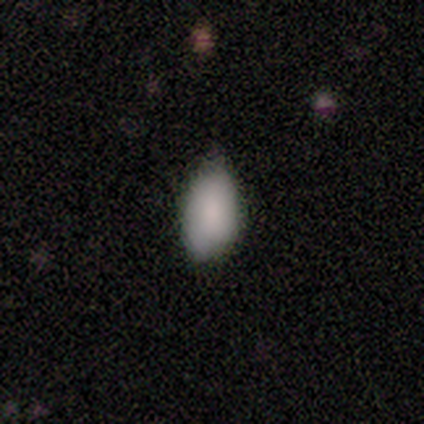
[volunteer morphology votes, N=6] Smooth or featured: smooth — 100%
How rounded: in between — 83% (cigar-shaped — 17%)
Merging: none — 50% (tied with minor disturbance — 50%)